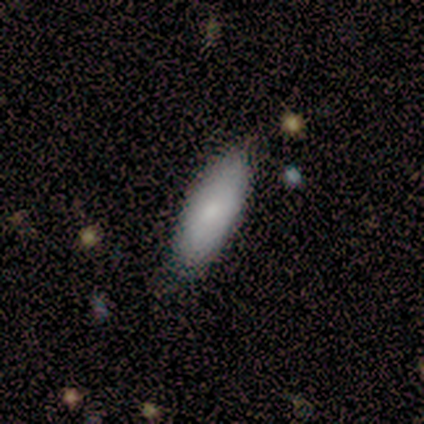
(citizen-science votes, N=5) smooth-or-featured: smooth: 100% | featured or disk: 0% | star or artifact: 0%
  how-rounded: in between: 60% | cigar-shaped: 40% | round: 0%
  merging: none: 100% | minor disturbance: 0% | major disturbance: 0% | merger: 0%